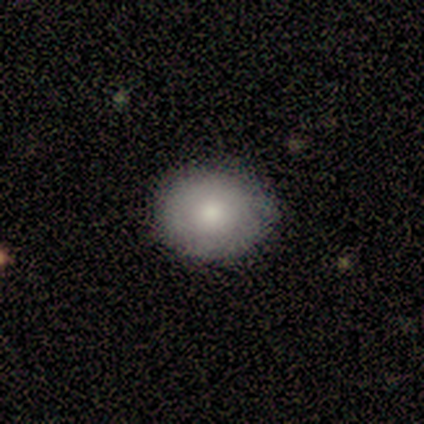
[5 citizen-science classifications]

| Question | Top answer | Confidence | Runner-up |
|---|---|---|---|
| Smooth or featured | smooth | 100% | — |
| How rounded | round | 80% | in between (20%) |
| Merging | none | 80% | minor disturbance (20%) |